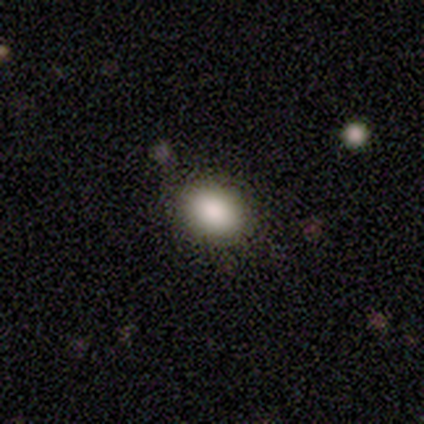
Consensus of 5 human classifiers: A smooth galaxy with no disk features (80%) that is in between round and cigar-shaped (75%).

Vote fractions:
- Smooth or featured? smooth: 80% / star or artifact: 20% / featured or disk: 0%
- How rounded? in between: 75% / round: 25% / cigar-shaped: 0%
- Merging? none: 75% / minor disturbance: 25% / major disturbance: 0% / merger: 0%